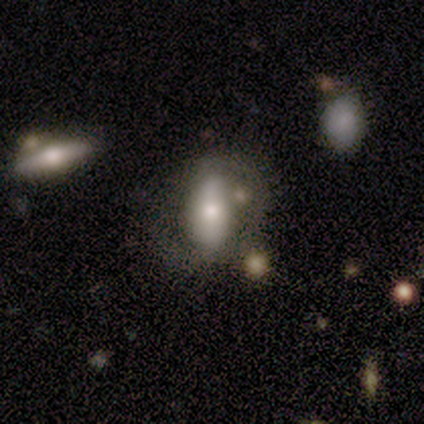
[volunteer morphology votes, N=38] Smooth or featured?
  - smooth: 55% *
  - featured or disk: 37%
  - star or artifact: 8%
How rounded?
  - in between: 67% *
  - cigar-shaped: 24%
  - round: 10%
Merging?
  - none: 57% *
  - minor disturbance: 17%
  - major disturbance: 14%
  - merger: 11%